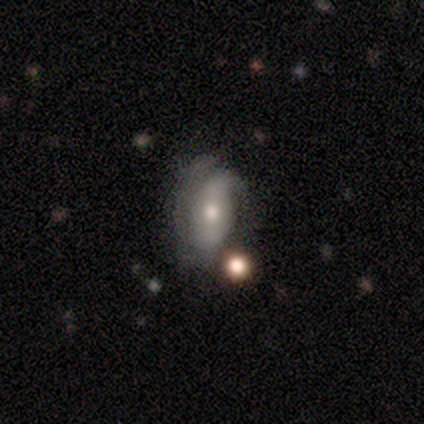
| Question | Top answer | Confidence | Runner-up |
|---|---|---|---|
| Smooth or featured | featured or disk | 51% | smooth (49%) |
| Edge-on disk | no | 90% | yes (10%) |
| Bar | no | 50% | strong (28%) |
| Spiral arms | yes | 61% | no (39%) |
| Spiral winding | tight | 45% | tied: medium (45%) |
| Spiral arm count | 2 | 73% | 1 (9%) |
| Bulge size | moderate | 67% | small (28%) |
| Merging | minor disturbance | 41% | none (33%) |